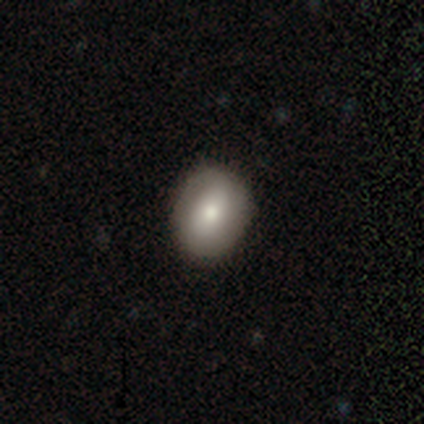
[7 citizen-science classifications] Smooth or featured: smooth — 71% (featured or disk — 14%)
How rounded: in between — 60% (round — 40%)
Merging: none — 83% (minor disturbance — 17%)